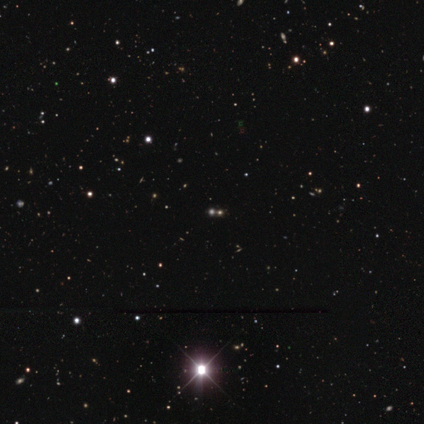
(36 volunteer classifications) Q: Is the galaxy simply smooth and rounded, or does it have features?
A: star or artifact — 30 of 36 (83%).